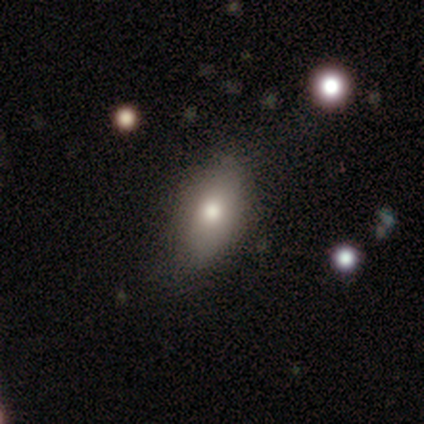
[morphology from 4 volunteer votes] smooth_or_featured: smooth (p=0.50) [alt: featured or disk p=0.25]
how_rounded: in between (p=1.00)
merging: none (p=0.67) [alt: major disturbance p=0.33]